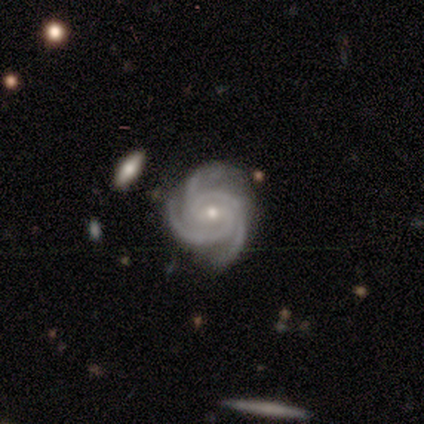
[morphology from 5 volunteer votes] A featured or disk galaxy (80%) with no bar (50%), 3 (100%) tight (75%) spiral arms (100%) and a small central bulge (75%).

Vote fractions:
- Smooth or featured? featured or disk: 80% / star or artifact: 20% / smooth: 0%
- Edge-on disk? no: 100% / yes: 0%
- Bar? no: 50% / strong: 25% / weak: 25%
- Spiral arms? yes: 100% / no: 0%
- Spiral winding? tight: 75% / medium: 25% / loose: 0%
- Spiral arm count? 3: 100% / 1: 0% / 2: 0% / 4: 0% / more than 4: 0% / can't tell: 0%
- Bulge size? small: 75% / moderate: 25% / dominant: 0% / large: 0% / none: 0%
- Merging? none: 100% / minor disturbance: 0% / major disturbance: 0% / merger: 0%